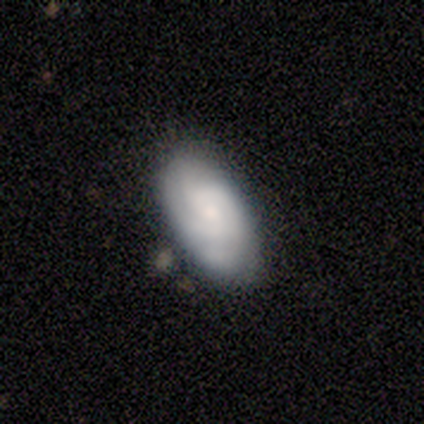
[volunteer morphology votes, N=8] A featured or disk galaxy (62%) with no bar (50%), medium (50%) spiral arms (100%) and a small central bulge (75%).

Vote fractions:
- Smooth or featured? featured or disk: 62% / smooth: 38% / star or artifact: 0%
- Edge-on disk? no: 80% / yes: 20%
- Bar? no: 50% / strong: 25% / weak: 25%
- Spiral arms? yes: 100% / no: 0%
- Spiral winding? medium: 50% / tight: 25% / loose: 25%
- Spiral arm count? can't tell: 100% / 1: 0% / 2: 0% / 3: 0% / 4: 0% / more than 4: 0%
- Bulge size? small: 75% / moderate: 25% / dominant: 0% / large: 0% / none: 0%
- Merging? none: 75% / minor disturbance: 25% / major disturbance: 0% / merger: 0%